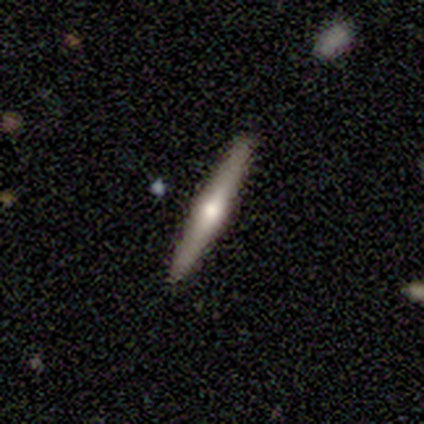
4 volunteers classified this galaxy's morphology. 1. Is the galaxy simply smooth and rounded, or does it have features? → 75% featured or disk, 25% smooth, 0% star or artifact.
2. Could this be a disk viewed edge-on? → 100% yes, 0% no.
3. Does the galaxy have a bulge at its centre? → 100% rounded, 0% boxy, 0% none.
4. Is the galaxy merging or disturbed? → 100% none, 0% minor disturbance, 0% major disturbance, 0% merger.